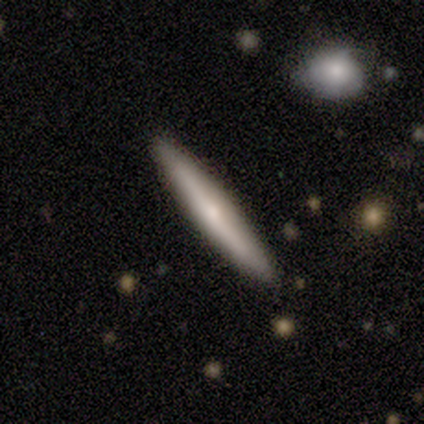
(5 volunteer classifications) Smooth or featured?
  - featured or disk: 60% *
  - smooth: 40%
  - star or artifact: 0%
Edge-on disk?
  - yes: 100% *
  - no: 0%
Edge-on bulge?
  - rounded: 67% *
  - none: 33%
  - boxy: 0%
Merging?
  - none: 100% *
  - minor disturbance: 0%
  - major disturbance: 0%
  - merger: 0%